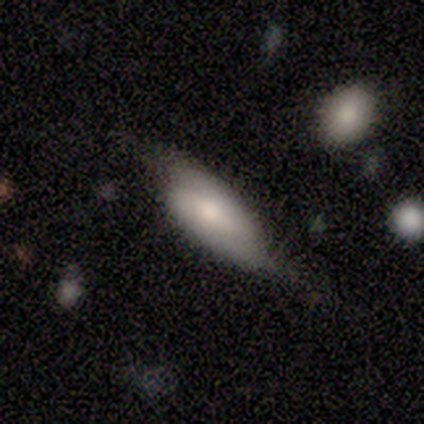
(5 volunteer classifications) Smooth or featured? featured or disk (80%)
Edge-on disk? no (75%)
Bar? weak (67%)
Spiral arms? yes (100%)
Spiral winding? tight (67%)
Spiral arm count? 2 (67%)
Bulge size? large (67%)
Merging? none (80%)